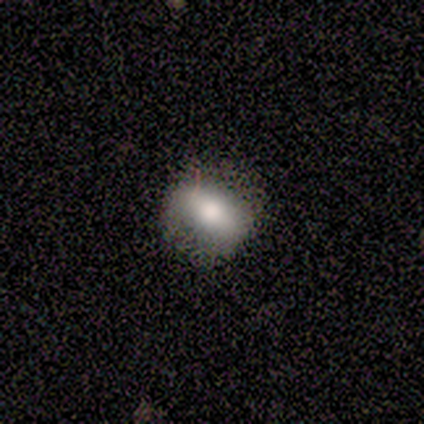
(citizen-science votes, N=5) Volunteers were most divided on "how rounded" (2-way tie): round: 50%, in between: 50%, cigar-shaped: 0%. More confident: smooth or featured — smooth (80%); merging — none (75%).